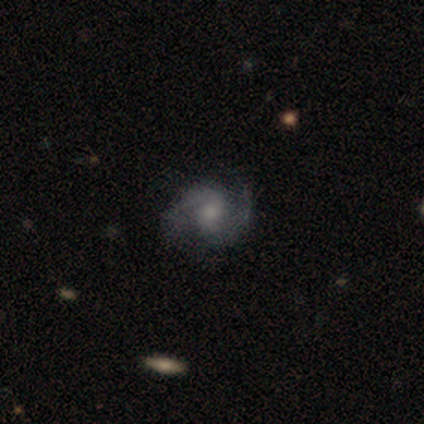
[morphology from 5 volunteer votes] Q: Smooth or featured?
A: featured or disk (100%)
Q: Edge-on disk?
A: no (100%)
Q: Bar?
A: no (80%); runner-up: weak (20%)
Q: Spiral arms?
A: yes (100%)
Q: Spiral winding?
A: loose (80%); runner-up: medium (20%)
Q: Spiral arm count?
A: 2 (100%)
Q: Bulge size?
A: moderate (40%); tied with: small (40%)
Q: Merging?
A: none (100%)